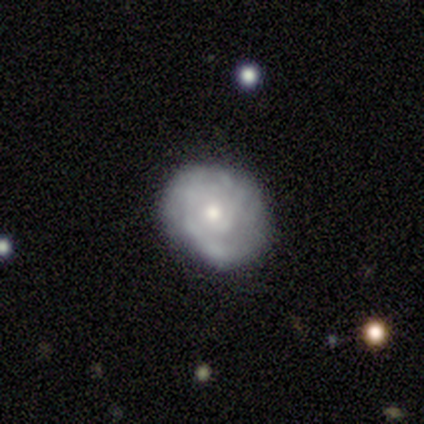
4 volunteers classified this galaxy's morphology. Volunteers were most divided on "spiral arm count" (2-way tie): 1: 50%, 2: 50%, 3: 0%, 4: 0%, more than 4: 0%, can't tell: 0%. More confident: edge-on disk — no (100%); bar — no (100%); spiral winding — tight (100%); bulge size — moderate (100%); smooth or featured — featured or disk (75%); spiral arms — yes (67%); merging — none (67%).